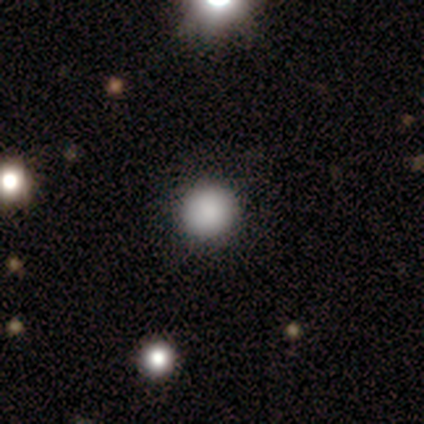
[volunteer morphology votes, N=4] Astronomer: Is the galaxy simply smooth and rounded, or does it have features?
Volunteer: smooth — 100%.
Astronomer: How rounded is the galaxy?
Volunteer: round — 100%.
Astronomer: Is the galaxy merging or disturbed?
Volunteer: none — 100%.